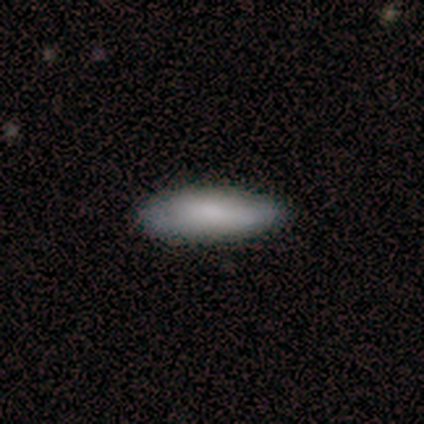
A smooth galaxy with no disk features (80%) that is in between round and cigar-shaped (100%).

Vote fractions:
- Smooth or featured? smooth: 80% / featured or disk: 20% / star or artifact: 0%
- How rounded? in between: 100% / round: 0% / cigar-shaped: 0%
- Merging? none: 60% / minor disturbance: 40% / major disturbance: 0% / merger: 0%